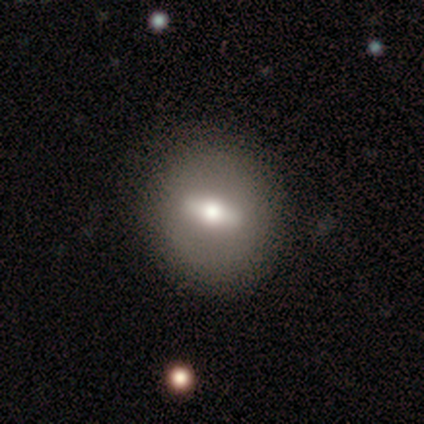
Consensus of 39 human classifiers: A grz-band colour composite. It shows a featured or disk galaxy (59%) with a strong bar (38%, tied with weak), no spiral arms (92%) and a moderate central bulge (77%). Merging: none (92%).